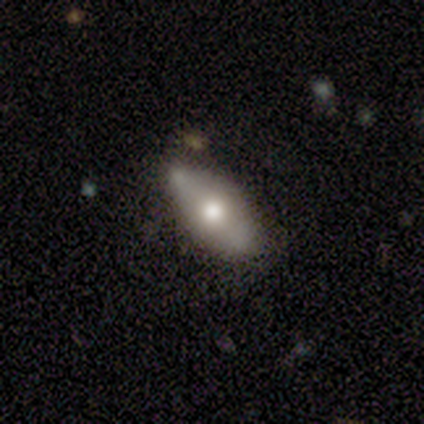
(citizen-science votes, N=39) A smooth galaxy with no disk features (59%) that is in between round and cigar-shaped (83%). Merging: none (61%).